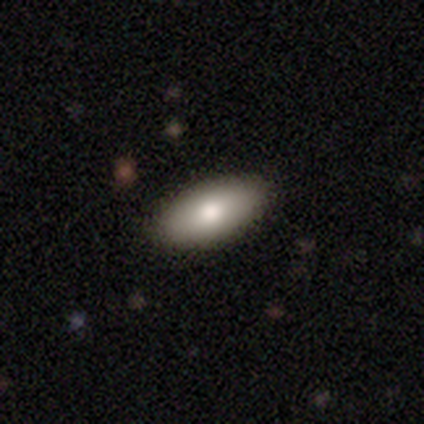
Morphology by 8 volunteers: smooth_or_featured: smooth (p=0.88) [alt: featured or disk p=0.12]
how_rounded: in between (p=0.86) [alt: round p=0.14]
merging: none (p=1.00)